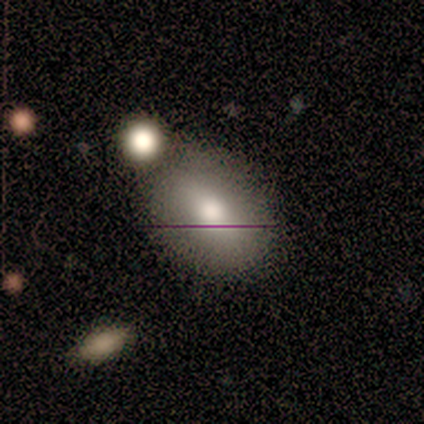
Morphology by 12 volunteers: Smooth or featured? 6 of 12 (50%) said smooth. How rounded? 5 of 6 (83%) said in between. Merging? 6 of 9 (67%) said none.